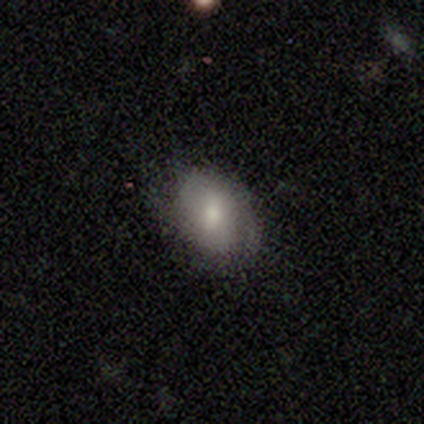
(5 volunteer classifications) A smooth galaxy with no disk features (80%) that is in between round and cigar-shaped (100%). Merging: none (100%).